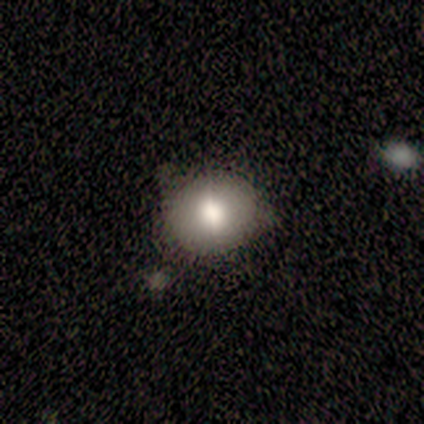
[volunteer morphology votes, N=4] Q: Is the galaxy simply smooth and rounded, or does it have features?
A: smooth — 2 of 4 (50%, tied with featured or disk).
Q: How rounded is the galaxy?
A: round — 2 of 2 (100%).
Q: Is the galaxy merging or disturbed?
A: none — 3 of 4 (75%).